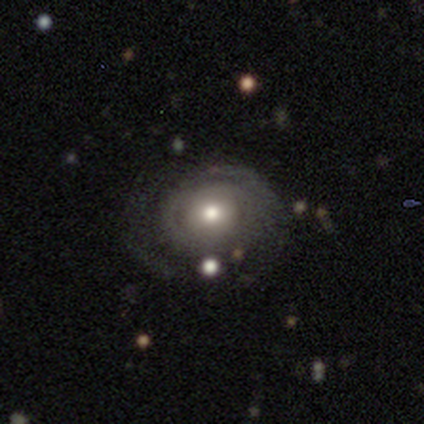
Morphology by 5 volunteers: This appears to be a smooth galaxy with no disk features (60%) that is round (67%). Merging: none (100%).